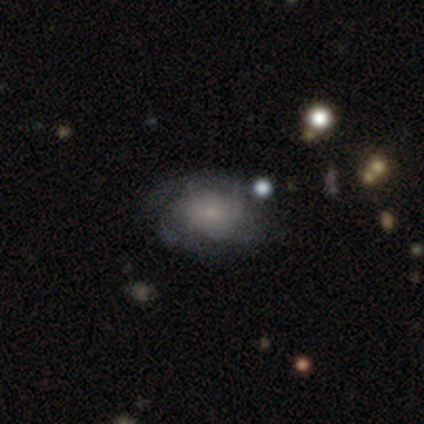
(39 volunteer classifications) This appears to be a featured or disk galaxy (49%) with no bar (79%), no spiral arms (58%) and a small central bulge (53%). Merging: none (50%).